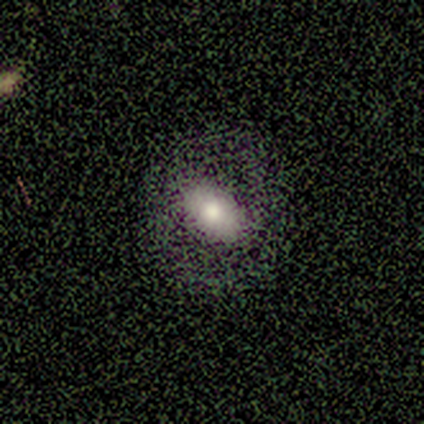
Q: Smooth or featured?
A: smooth (43%); tied with: featured or disk (43%)
Q: How rounded?
A: in between (67%); runner-up: round (33%)
Q: Merging?
A: none (83%); runner-up: minor disturbance (17%)